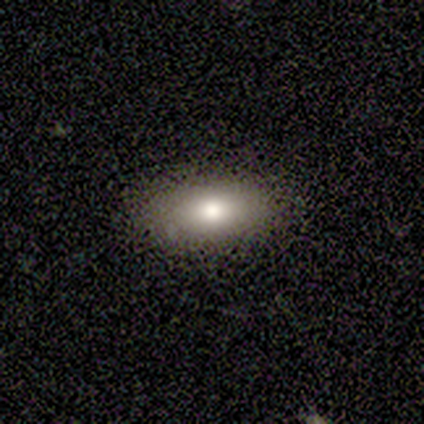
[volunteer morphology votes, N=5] type=smooth (100%); roundness=in between (60%); merging=none (100%).